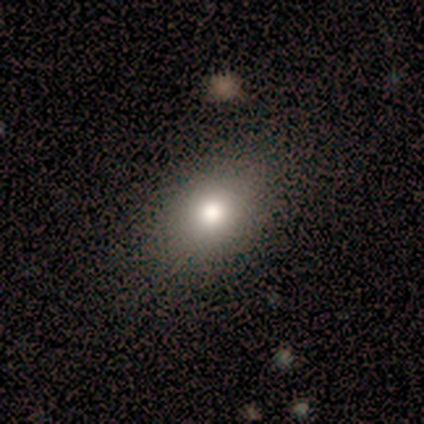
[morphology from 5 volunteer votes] Smooth or featured? smooth (100%)
How rounded? in between (100%)
Merging? none (60%)